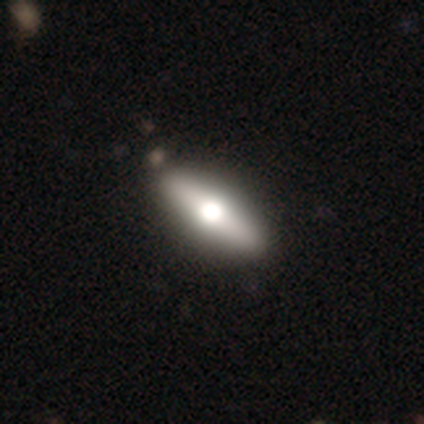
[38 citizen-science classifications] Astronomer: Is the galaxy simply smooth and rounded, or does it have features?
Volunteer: smooth — 50% (runner-up: featured or disk, 45%).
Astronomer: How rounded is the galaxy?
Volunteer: cigar-shaped — 63%.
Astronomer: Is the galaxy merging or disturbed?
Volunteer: none — 81%.